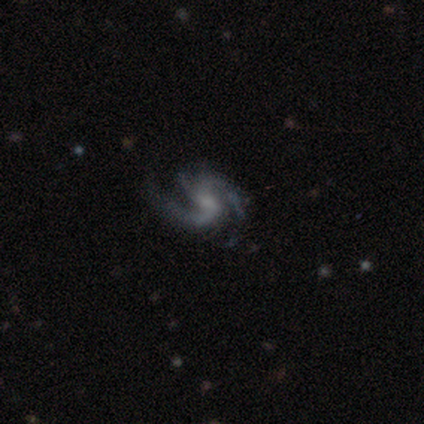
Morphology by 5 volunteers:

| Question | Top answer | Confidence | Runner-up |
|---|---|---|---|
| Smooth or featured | featured or disk | 100% | — |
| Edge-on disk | no | 100% | — |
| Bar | no | 80% | strong (20%) |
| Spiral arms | yes | 100% | — |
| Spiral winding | medium | 60% | tight (40%) |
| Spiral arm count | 2 | 80% | 3 (20%) |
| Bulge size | moderate | 40% | tied: none (40%) |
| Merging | none | 60% | minor disturbance (20%) |